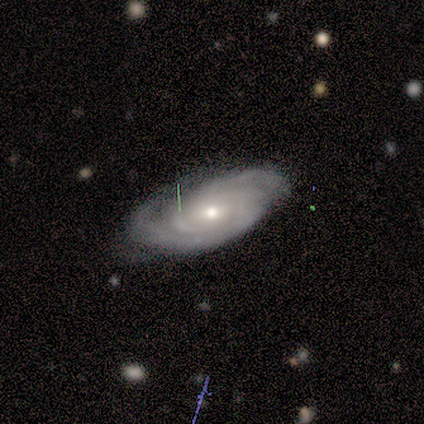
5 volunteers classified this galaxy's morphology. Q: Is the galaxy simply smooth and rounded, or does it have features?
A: featured or disk — 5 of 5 (100%).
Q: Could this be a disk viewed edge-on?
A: no — 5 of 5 (100%).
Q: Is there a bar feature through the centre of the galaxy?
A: weak — 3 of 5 (60%).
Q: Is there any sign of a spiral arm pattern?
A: yes — 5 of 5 (100%).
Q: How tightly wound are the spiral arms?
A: tight — 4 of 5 (80%).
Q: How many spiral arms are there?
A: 2 — 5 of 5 (100%).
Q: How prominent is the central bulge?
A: small — 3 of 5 (60%).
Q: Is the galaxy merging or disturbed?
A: none — 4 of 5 (80%).